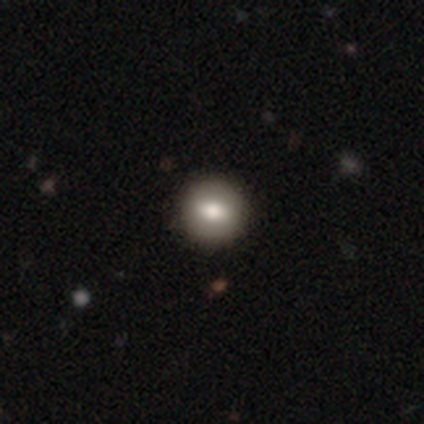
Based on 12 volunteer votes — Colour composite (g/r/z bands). It shows a smooth galaxy with no disk features (67%) that is round (75%). Merging: none (90%).